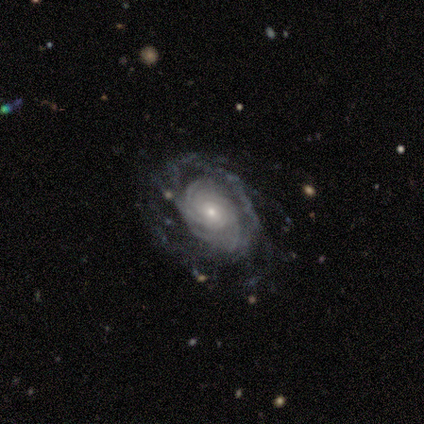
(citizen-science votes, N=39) smooth-or-featured: featured or disk: 92% | smooth: 5% | star or artifact: 3%
  disk-edge-on: no: 97% | yes: 3%
    bar: no: 83% | weak: 14% | strong: 3%
    has-spiral-arms: yes: 97% | no: 3%
      spiral-winding: tight: 79% | medium: 18% | loose: 3%
      spiral-arm-count: can't tell: 38% | more than 4: 29% | 4: 15% | 3: 9% | 2: 6% | 1: 3%
    bulge-size: small: 80% | moderate: 17% | dominant: 3% | large: 0% | none: 0%
  merging: none: 66% | major disturbance: 18% | minor disturbance: 16% | merger: 0%